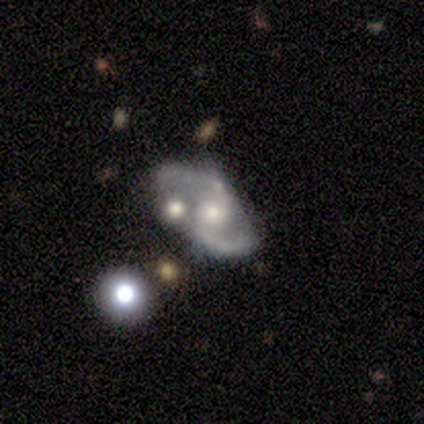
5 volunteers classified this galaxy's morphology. Q: Smooth or featured?
A: featured or disk (100%)
Q: Edge-on disk?
A: no (100%)
Q: Bar?
A: weak (60%); runner-up: strong (20%)
Q: Spiral arms?
A: yes (80%); runner-up: no (20%)
Q: Spiral winding?
A: medium (50%); tied with: loose (50%)
Q: Spiral arm count?
A: 2 (100%)
Q: Bulge size?
A: moderate (100%)
Q: Merging?
A: none (60%); runner-up: minor disturbance (20%)